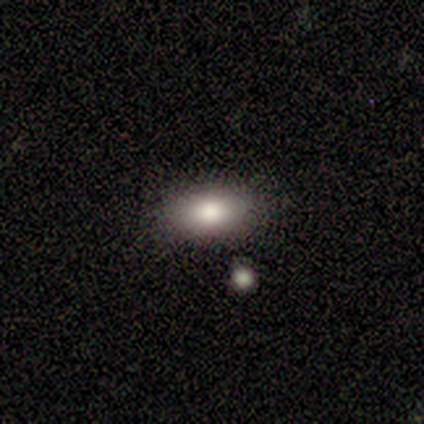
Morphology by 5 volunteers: A smooth galaxy with no disk features (100%) that is in between round and cigar-shaped (100%).

Vote fractions:
- Smooth or featured? smooth: 100% / featured or disk: 0% / star or artifact: 0%
- How rounded? in between: 100% / round: 0% / cigar-shaped: 0%
- Merging? none: 100% / minor disturbance: 0% / major disturbance: 0% / merger: 0%